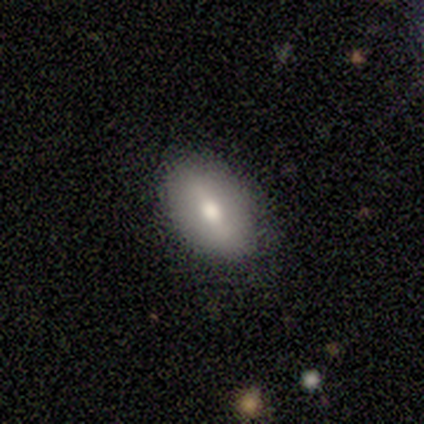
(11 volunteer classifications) Smooth or featured?
  - featured or disk: 55% *
  - smooth: 45%
  - star or artifact: 0%
Edge-on disk?
  - no: 100% *
  - yes: 0%
Bar?
  - weak: 50% *
  - strong: 33%
  - no: 17%
Spiral arms?
  - no: 100% *
  - yes: 0%
Bulge size?
  - moderate: 67% *
  - large: 17%
  - small: 17%
  - dominant: 0%
  - none: 0%
Merging?
  - none: 64% *
  - minor disturbance: 27%
  - major disturbance: 9%
  - merger: 0%